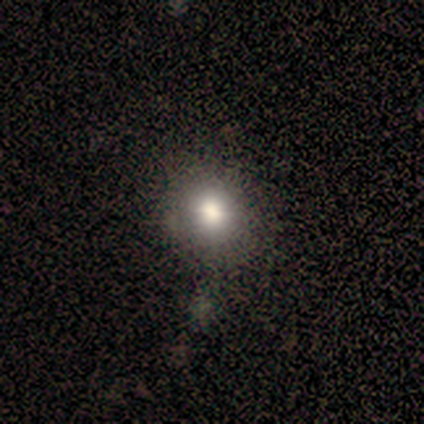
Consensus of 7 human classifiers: smooth-or-featured: smooth: 57% | featured or disk: 29% | star or artifact: 14%
  how-rounded: round: 50% (tied) | in between: 50% (tied) | cigar-shaped: 0%
  merging: none: 100% | minor disturbance: 0% | major disturbance: 0% | merger: 0%